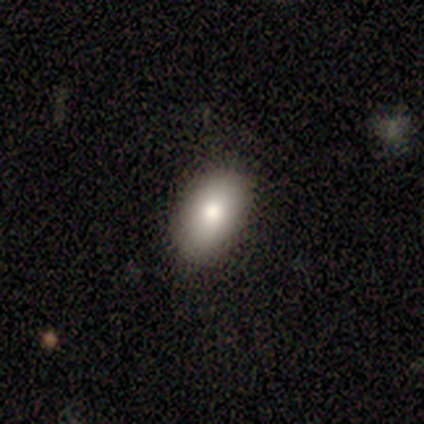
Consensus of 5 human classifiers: Smooth or featured? 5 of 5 (100%) said smooth. How rounded? 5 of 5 (100%) said in between. Merging? 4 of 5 (80%) said none.